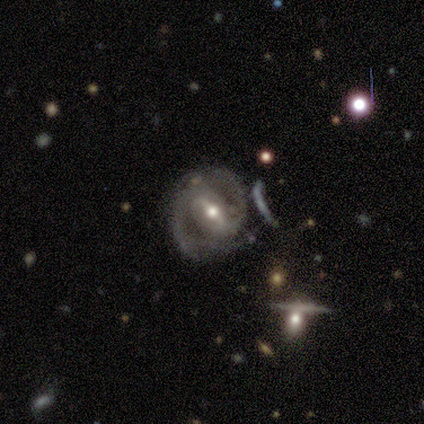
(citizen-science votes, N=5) A featured or disk galaxy (100%) with a strong bar (80%), 2 (80%) tight (40%, tied with medium) spiral arms (100%) and a small central bulge (60%).

Vote fractions:
- Smooth or featured? featured or disk: 100% / smooth: 0% / star or artifact: 0%
- Edge-on disk? no: 100% / yes: 0%
- Bar? strong: 80% / weak: 20% / no: 0%
- Spiral arms? yes: 100% / no: 0%
- Spiral winding? tight: 40% (tied) / medium: 40% (tied) / loose: 20%
- Spiral arm count? 2: 80% / can't tell: 20% / 1: 0% / 3: 0% / 4: 0% / more than 4: 0%
- Bulge size? small: 60% / moderate: 40% / dominant: 0% / large: 0% / none: 0%
- Merging? none: 60% / minor disturbance: 40% / major disturbance: 0% / merger: 0%